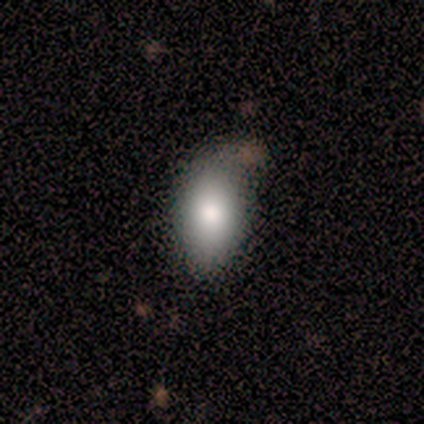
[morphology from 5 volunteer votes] This is clearly a smooth galaxy (80%). How rounded: clearly in between (100%). Merging: clearly none (100%).